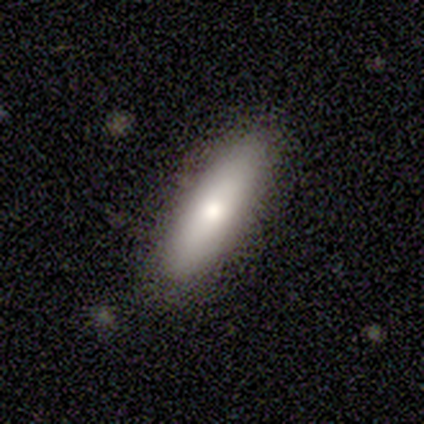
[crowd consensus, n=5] Smooth or featured? 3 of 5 (60%) said smooth. How rounded? 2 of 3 (67%) said in between. Merging? 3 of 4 (75%) said none.